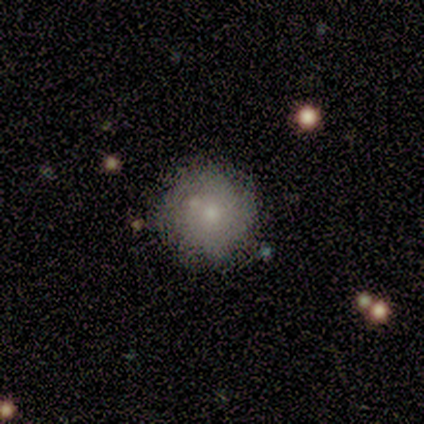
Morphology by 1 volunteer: type=featured or disk (100%); edge-on=no (100%); bar=no (100%); spiral arms=no (100%); bulge=moderate (100%); merging=merger (100%).